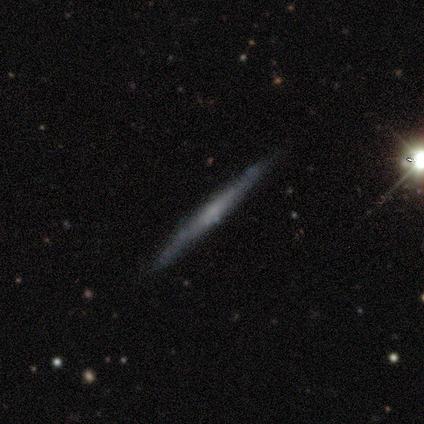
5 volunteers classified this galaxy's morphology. type=smooth (40%, tied with featured or disk); roundness=cigar-shaped (100%); merging=none (100%).